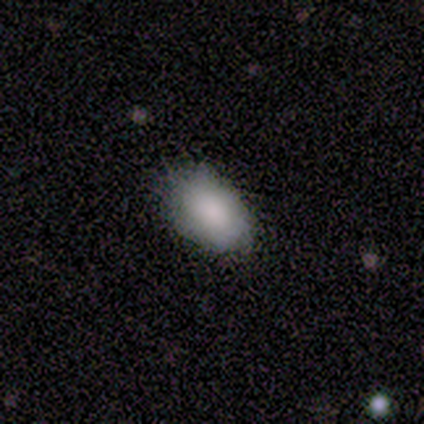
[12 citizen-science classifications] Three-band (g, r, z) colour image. It shows a smooth galaxy with no disk features (92%) that is in between round and cigar-shaped (100%). Merging: none (75%).